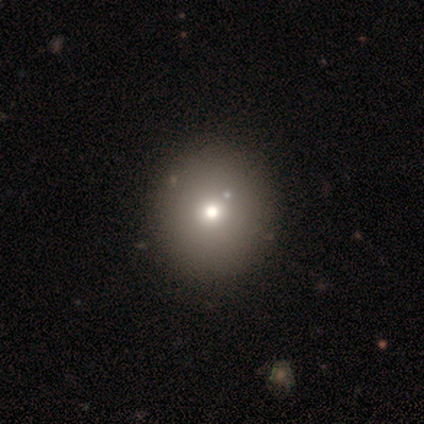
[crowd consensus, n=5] Morphology: type=smooth (60%); roundness=round (100%); merging=none (100%).